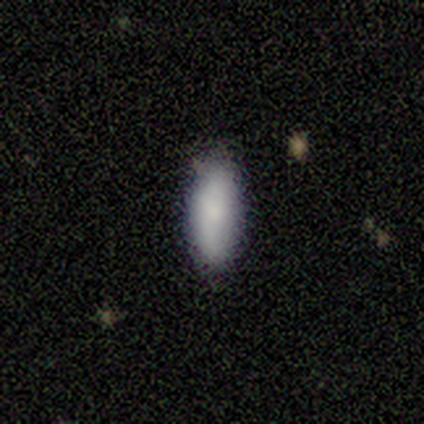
Volunteers were most divided on "merging": none: 75%, minor disturbance: 25%, major disturbance: 0%, merger: 0%. More confident: how rounded — in between (100%); smooth or featured — smooth (80%).